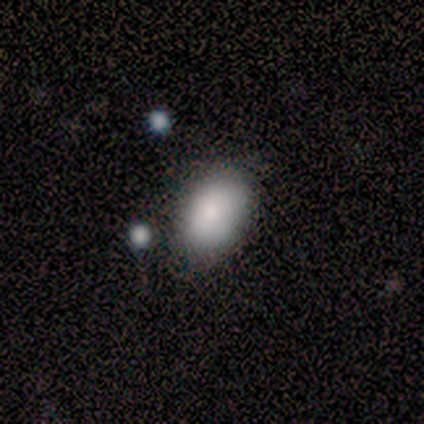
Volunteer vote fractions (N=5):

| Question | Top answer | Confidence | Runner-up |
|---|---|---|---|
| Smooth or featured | smooth | 80% | featured or disk (20%) |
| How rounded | in between | 100% | — |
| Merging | none | 100% | — |